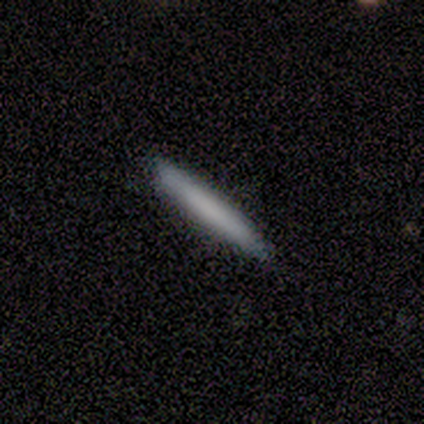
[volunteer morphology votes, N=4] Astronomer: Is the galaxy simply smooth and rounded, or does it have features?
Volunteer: smooth — 75%.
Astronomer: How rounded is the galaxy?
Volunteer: cigar-shaped — 100%.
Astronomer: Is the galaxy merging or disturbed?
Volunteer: none — 100%.